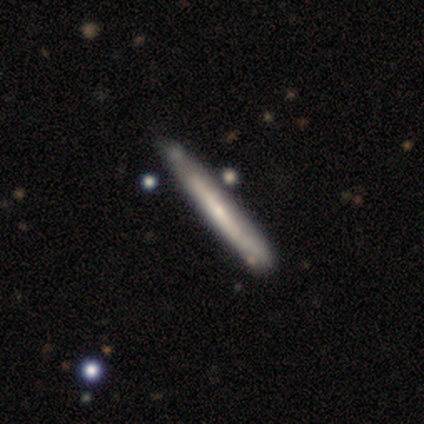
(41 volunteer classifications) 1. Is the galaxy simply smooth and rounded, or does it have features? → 61% featured or disk, 39% smooth, 0% star or artifact.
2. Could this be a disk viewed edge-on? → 84% yes, 16% no.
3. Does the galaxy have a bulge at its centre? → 67% none, 24% rounded, 10% boxy.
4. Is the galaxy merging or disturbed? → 68% none, 24% minor disturbance, 5% major disturbance, 2% merger.